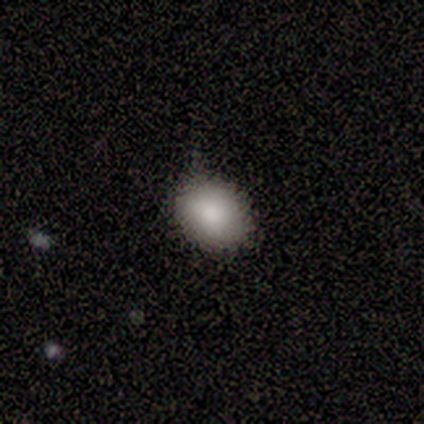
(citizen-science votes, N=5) Volunteers were most divided on "smooth or featured": smooth: 80%, star or artifact: 20%, featured or disk: 0%. More confident: how rounded — in between (100%); merging — none (100%).